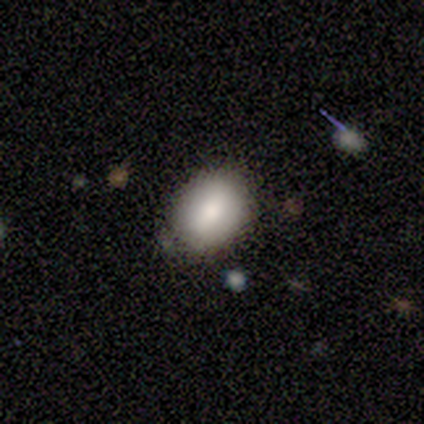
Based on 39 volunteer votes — This appears to be a smooth galaxy with no disk features (67%) that is in between round and cigar-shaped (77%). Merging: none (82%).